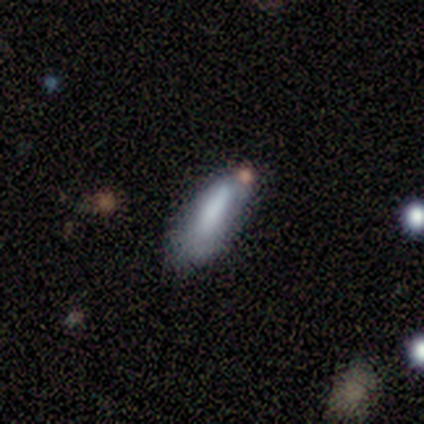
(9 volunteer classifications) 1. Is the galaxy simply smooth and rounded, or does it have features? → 78% smooth, 11% featured or disk, 11% star or artifact.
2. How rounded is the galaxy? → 71% in between, 29% cigar-shaped, 0% round.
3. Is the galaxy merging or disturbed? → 50% none (tied), 50% minor disturbance (tied), 0% major disturbance, 0% merger.